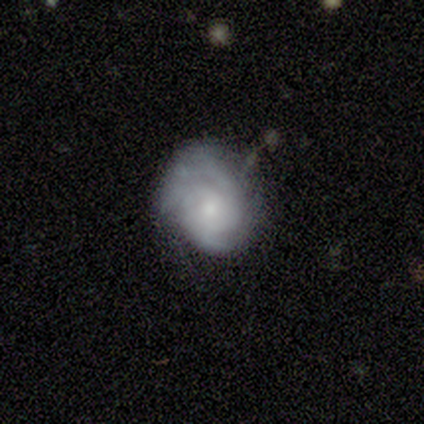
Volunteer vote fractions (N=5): Smooth or featured?
  - featured or disk: 60% *
  - smooth: 40%
  - star or artifact: 0%
Edge-on disk?
  - no: 100% *
  - yes: 0%
Bar?
  - no: 67% *
  - strong: 33%
  - weak: 0%
Spiral arms?
  - yes: 100% *
  - no: 0%
Spiral winding?
  - tight: 100% *
  - medium: 0%
  - loose: 0%
Spiral arm count?
  - 2: 67% *
  - 1: 33%
  - 3: 0%
  - 4: 0%
  - more than 4: 0%
  - can't tell: 0%
Bulge size?
  - moderate: 67% *
  - large: 33%
  - dominant: 0%
  - small: 0%
  - none: 0%
Merging?
  - none: 100% *
  - minor disturbance: 0%
  - major disturbance: 0%
  - merger: 0%